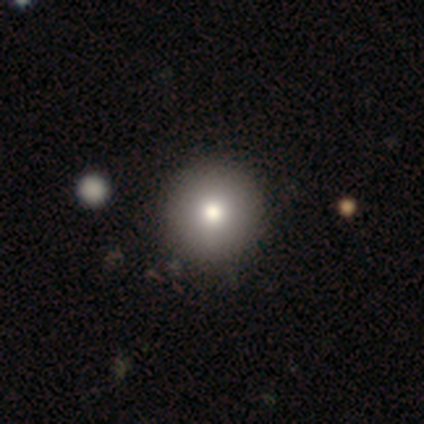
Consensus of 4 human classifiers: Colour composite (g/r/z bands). It shows a smooth galaxy with no disk features (100%) that is round (100%). Merging: none (100%).